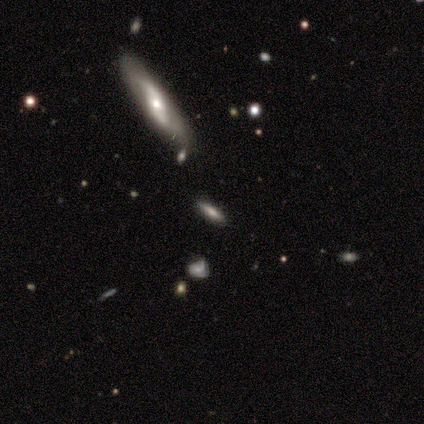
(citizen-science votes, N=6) Overall: smooth (50%; featured or disk 33%). How rounded: cigar-shaped (100%). Merging: none (60%; minor disturbance 20%).